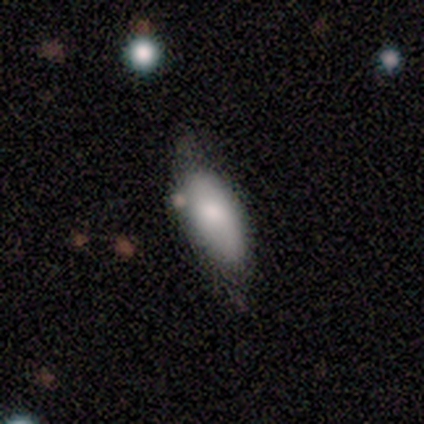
smooth 86%, featured or disk 14%, star or artifact 0%. Down the decision tree: how rounded — in between (83%); merging — none (71%).